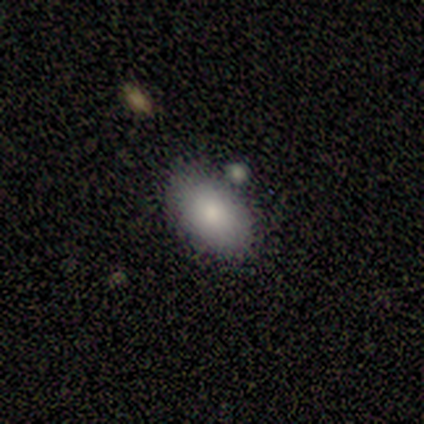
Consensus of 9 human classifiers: A smooth galaxy with no disk features (89%) that is in between round and cigar-shaped (100%). Merging: none (89%).